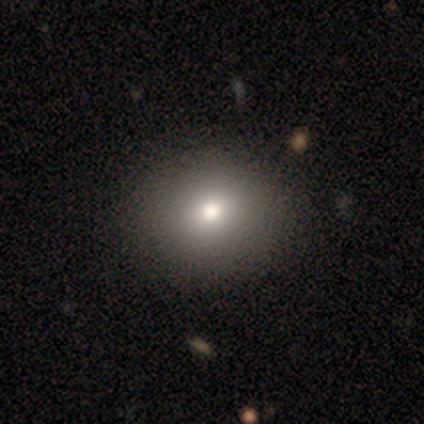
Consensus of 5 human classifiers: smooth-or-featured: smooth: 80% | featured or disk: 20% | star or artifact: 0%
  how-rounded: round: 100% | in between: 0% | cigar-shaped: 0%
  merging: none: 80% | merger: 20% | minor disturbance: 0% | major disturbance: 0%